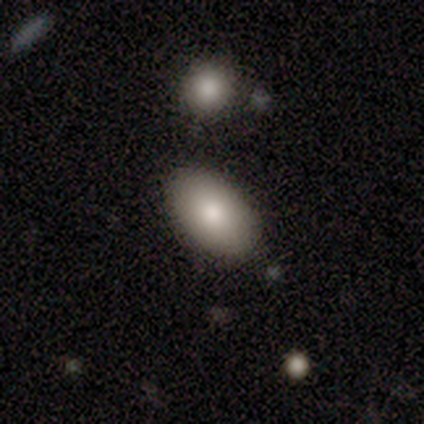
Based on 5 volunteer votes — Overall: smooth (100%). How rounded: in between (100%). Merging: none (80%).